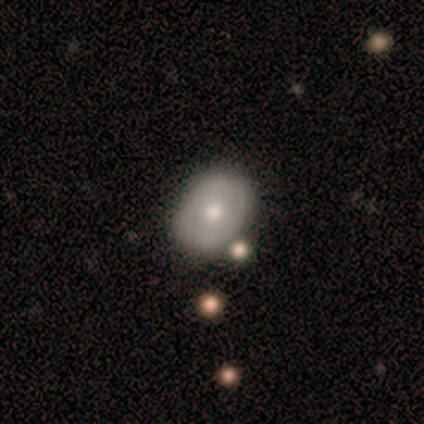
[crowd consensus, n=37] Volunteers were most divided on "how rounded": in between: 55%, round: 45%, cigar-shaped: 0%. More confident: merging — none (78%); smooth or featured — smooth (59%).